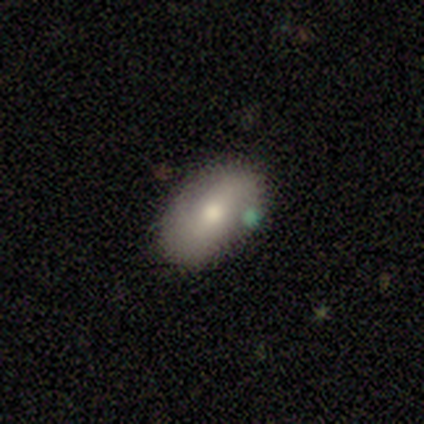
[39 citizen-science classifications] Q: Smooth or featured?
A: smooth (77%); runner-up: featured or disk (18%)
Q: How rounded?
A: in between (83%); runner-up: round (10%)
Q: Merging?
A: none (73%); runner-up: minor disturbance (24%)